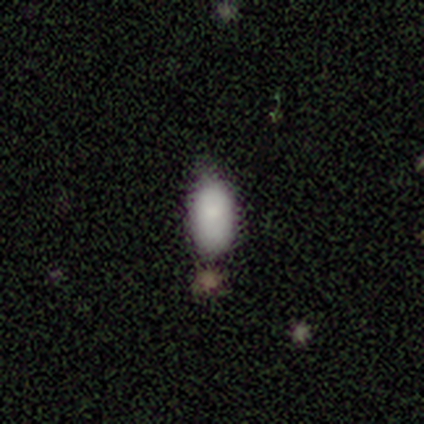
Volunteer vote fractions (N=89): Q: Smooth or featured?
A: smooth (89%); runner-up: star or artifact (7%)
Q: How rounded?
A: in between (94%); runner-up: cigar-shaped (5%)
Q: Merging?
A: none (67%); runner-up: minor disturbance (24%)